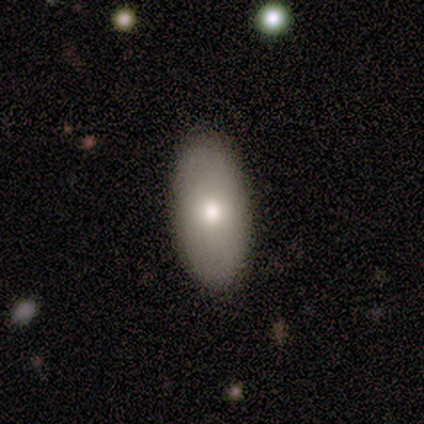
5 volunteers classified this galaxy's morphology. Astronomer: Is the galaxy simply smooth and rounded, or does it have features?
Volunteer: smooth — 60% (runner-up: featured or disk, 40%).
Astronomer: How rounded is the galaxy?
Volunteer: in between — 100%.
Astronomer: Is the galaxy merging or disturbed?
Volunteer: none — 80%.